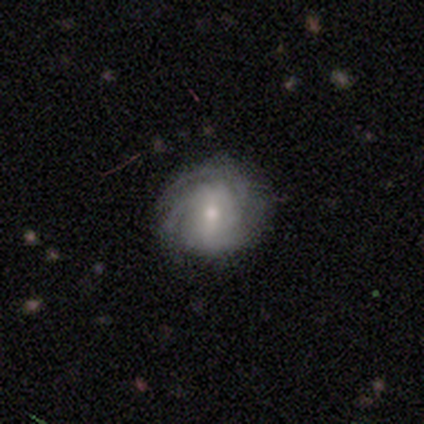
featured or disk 60%, smooth 40%, star or artifact 0%. Down the decision tree: edge-on disk — no (67%); bar — strong (50%, tied with weak); spiral arms — yes (100%); spiral arm count — 3 (50%, tied with can't tell); spiral winding — tight (100%); bulge size — moderate (50%, tied with small); merging — none (60%).